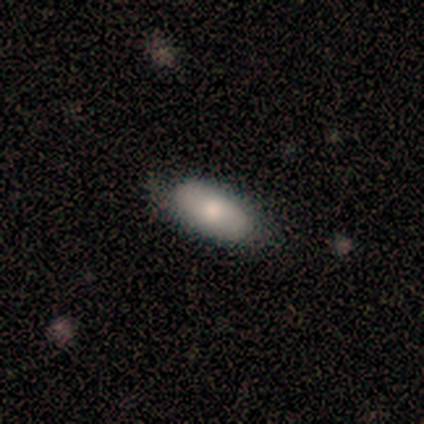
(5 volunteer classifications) Smooth or featured? 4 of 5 (80%) said smooth. How rounded? 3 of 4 (75%) said in between. Merging? 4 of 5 (80%) said none.